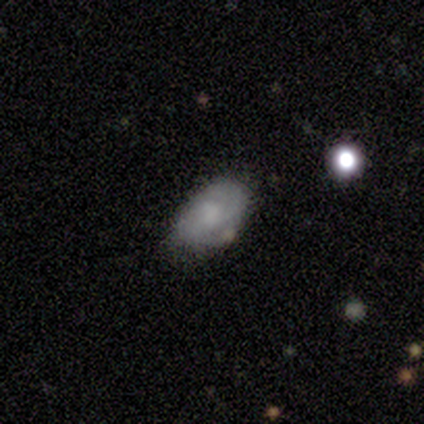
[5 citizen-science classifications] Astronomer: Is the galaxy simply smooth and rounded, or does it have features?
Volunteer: featured or disk — 60% (runner-up: smooth, 40%).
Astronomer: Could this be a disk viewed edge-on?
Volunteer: no — 100%.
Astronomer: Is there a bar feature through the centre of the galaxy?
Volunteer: no — 100%.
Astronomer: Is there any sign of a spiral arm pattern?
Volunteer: yes — 67%.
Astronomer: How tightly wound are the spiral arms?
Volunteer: medium — 50%, tied with loose at 50%.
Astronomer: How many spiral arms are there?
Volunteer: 2 — 50%, tied with 3 at 50%.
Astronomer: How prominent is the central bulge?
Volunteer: moderate — 33%, tied with small and none at 33%.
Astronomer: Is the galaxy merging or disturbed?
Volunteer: none — 60% (runner-up: minor disturbance, 40%).